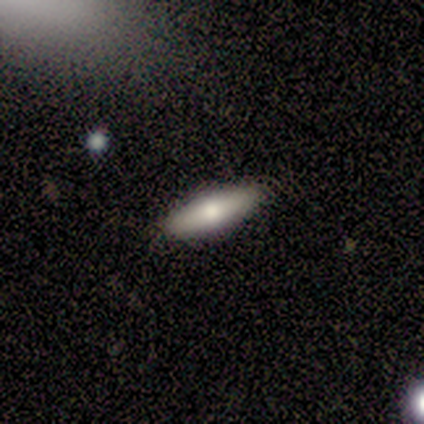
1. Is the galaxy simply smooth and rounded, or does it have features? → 78% smooth, 22% featured or disk, 0% star or artifact.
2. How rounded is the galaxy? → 71% in between, 29% cigar-shaped, 0% round.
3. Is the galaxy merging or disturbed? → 100% none, 0% minor disturbance, 0% major disturbance, 0% merger.